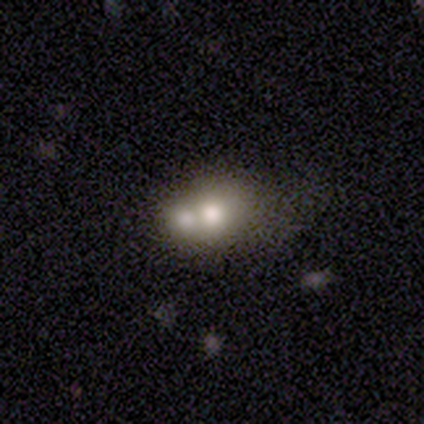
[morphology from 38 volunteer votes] Overall: smooth (66%; featured or disk 29%). How rounded: round (52%; in between 48%). Merging: merger (67%; none 31%).